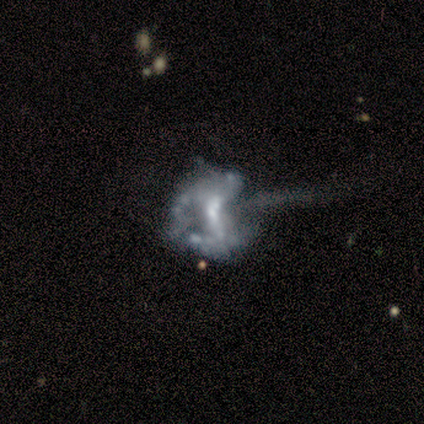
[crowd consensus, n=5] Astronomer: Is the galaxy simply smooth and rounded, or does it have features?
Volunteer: featured or disk — 100%.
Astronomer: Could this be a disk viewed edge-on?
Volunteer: no — 100%.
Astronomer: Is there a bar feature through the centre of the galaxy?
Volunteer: weak — 60% (runner-up: no, 40%).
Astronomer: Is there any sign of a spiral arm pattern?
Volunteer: no — 80%.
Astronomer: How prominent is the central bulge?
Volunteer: moderate — 60%.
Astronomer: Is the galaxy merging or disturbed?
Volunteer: major disturbance — 60%.